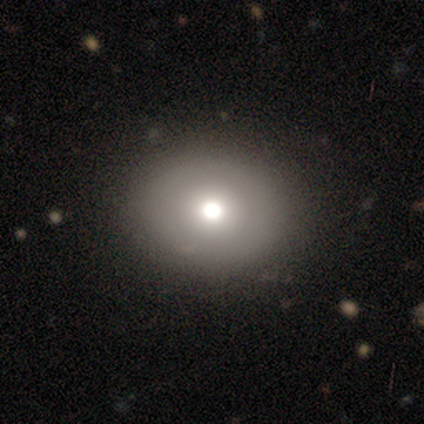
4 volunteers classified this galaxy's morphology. smooth-or-featured: smooth: 75% | featured or disk: 25% | star or artifact: 0%
  how-rounded: round: 100% | in between: 0% | cigar-shaped: 0%
  merging: none: 100% | minor disturbance: 0% | major disturbance: 0% | merger: 0%